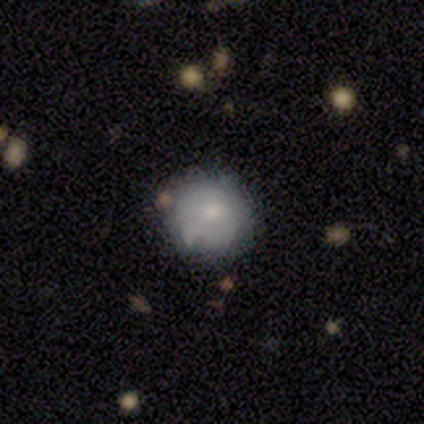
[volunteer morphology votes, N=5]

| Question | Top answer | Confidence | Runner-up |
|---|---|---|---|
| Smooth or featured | smooth | 80% | star or artifact (20%) |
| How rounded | round | 100% | — |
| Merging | none | 100% | — |